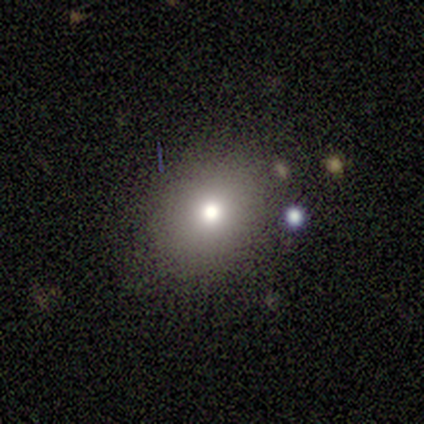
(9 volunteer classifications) Overall: smooth (67%). How rounded: round (50%, tied with in between). Merging: none (100%).